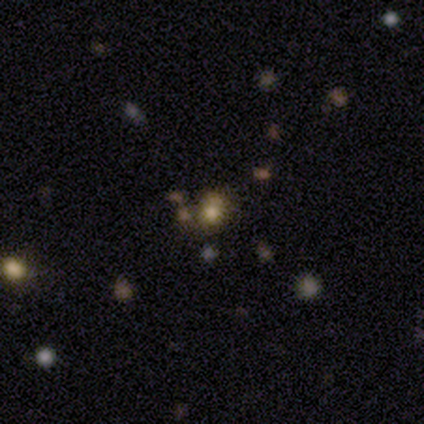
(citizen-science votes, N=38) smooth 55%, star or artifact 42%, featured or disk 3%. Down the decision tree: how rounded — round (71%); merging — none (77%).